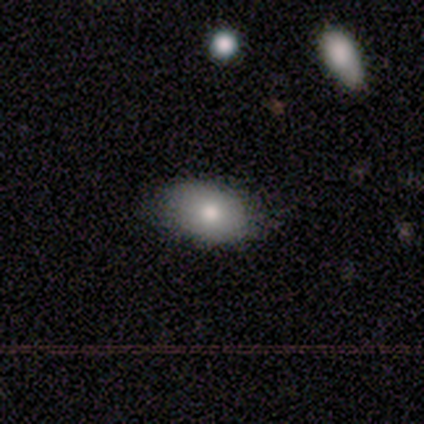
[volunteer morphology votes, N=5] This appears to be a smooth galaxy with no disk features (80%) that is in between round and cigar-shaped (75%). Merging: none (100%).